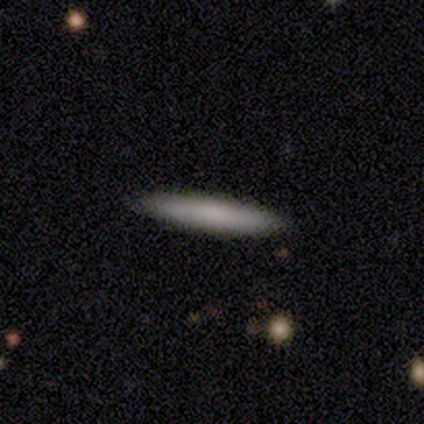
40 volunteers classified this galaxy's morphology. Smooth or featured? 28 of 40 (70%) said smooth. How rounded? 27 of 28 (96%) said cigar-shaped. Merging? 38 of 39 (97%) said none.